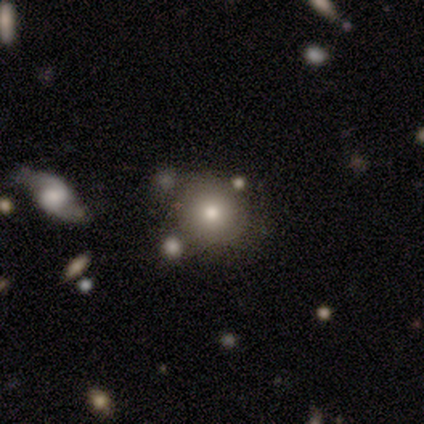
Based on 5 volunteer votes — Q: Smooth or featured?
A: smooth (60%); runner-up: featured or disk (20%)
Q: How rounded?
A: round (67%); runner-up: in between (33%)
Q: Merging?
A: none (75%); runner-up: minor disturbance (25%)